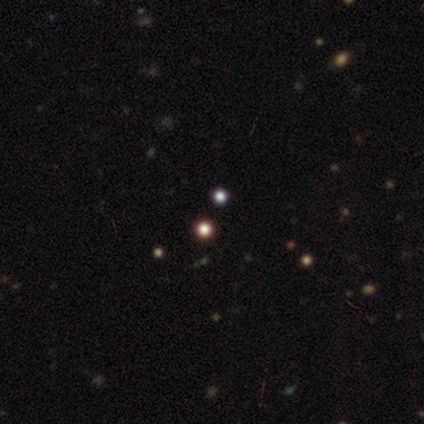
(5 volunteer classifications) Smooth or featured?
  - smooth: 40% * (tied)
  - star or artifact: 40% * (tied)
  - featured or disk: 20%
How rounded?
  - round: 100% *
  - in between: 0%
  - cigar-shaped: 0%
Merging?
  - none: 100% *
  - minor disturbance: 0%
  - major disturbance: 0%
  - merger: 0%